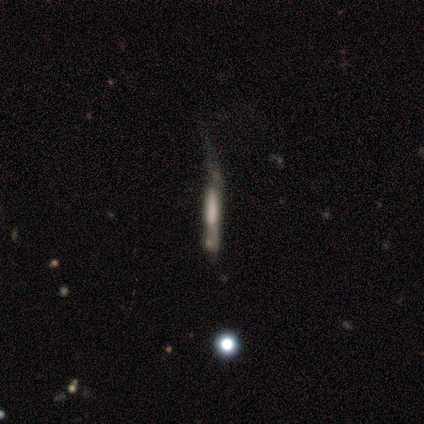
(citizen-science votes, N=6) This appears to be a smooth galaxy with no disk features (67%) that is cigar-shaped (100%). Merging: none (33%, tied with minor disturbance and major disturbance).